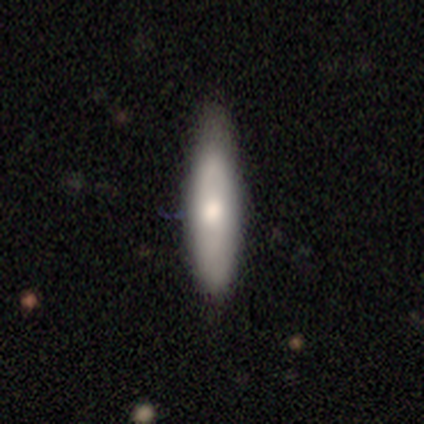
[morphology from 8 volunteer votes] smooth 88%, featured or disk 12%, star or artifact 0%. Down the decision tree: how rounded — cigar-shaped (57%); merging — none (62%).